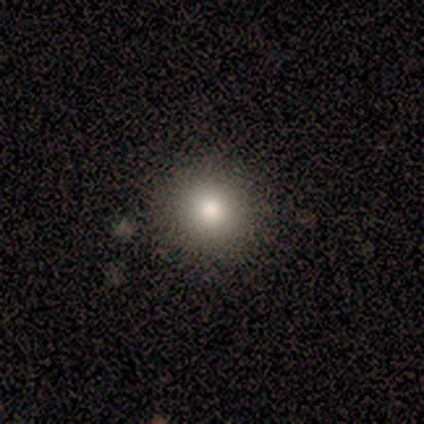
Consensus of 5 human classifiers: Smooth or featured: smooth — 80% (star or artifact — 20%)
How rounded: round — 100%
Merging: none — 100%